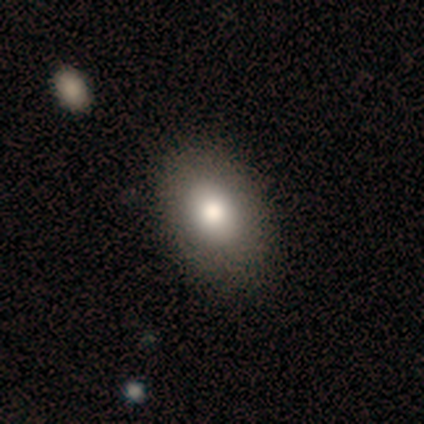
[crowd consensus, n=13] smooth_or_featured: smooth (p=0.69) [alt: featured or disk p=0.15]
how_rounded: in between (p=0.78) [alt: round p=0.22]
merging: none (p=0.73) [alt: minor disturbance p=0.27]